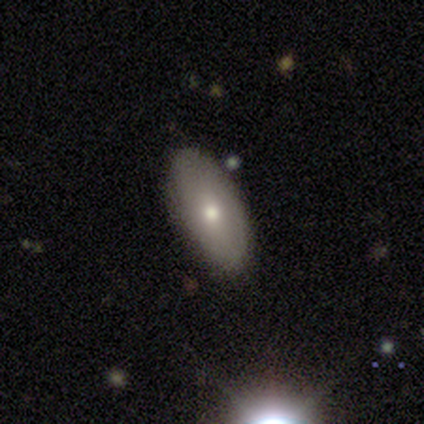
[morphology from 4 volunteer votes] Volunteers were most divided on "smooth or featured": smooth: 75%, star or artifact: 25%, featured or disk: 0%. More confident: how rounded — in between (100%); merging — none (100%).